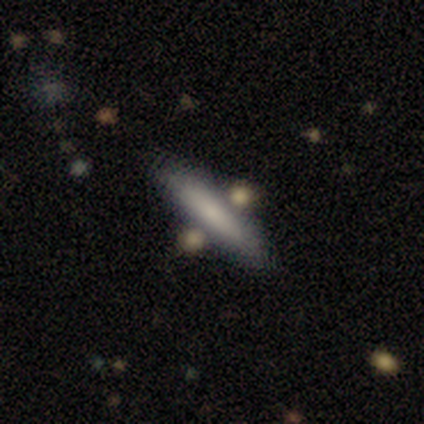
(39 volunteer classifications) smooth 59%, featured or disk 28%, star or artifact 13%. Down the decision tree: how rounded — cigar-shaped (91%); merging — none (79%).